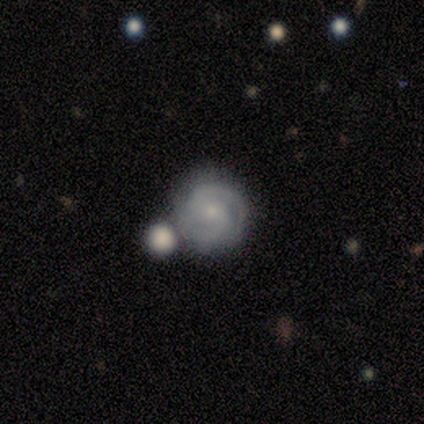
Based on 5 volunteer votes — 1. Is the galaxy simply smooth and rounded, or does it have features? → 60% featured or disk, 20% smooth, 20% star or artifact.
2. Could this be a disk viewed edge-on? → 100% no, 0% yes.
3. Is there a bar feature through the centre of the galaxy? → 67% weak, 33% strong, 0% no.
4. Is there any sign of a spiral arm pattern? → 100% yes, 0% no.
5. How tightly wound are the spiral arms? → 100% medium, 0% tight, 0% loose.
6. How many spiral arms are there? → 100% 2, 0% 1, 0% 3, 0% 4, 0% more than 4, 0% can't tell.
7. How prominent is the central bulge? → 33% moderate (tied), 33% small (tied), 33% none (tied), 0% dominant, 0% large.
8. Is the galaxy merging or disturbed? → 100% none, 0% minor disturbance, 0% major disturbance, 0% merger.